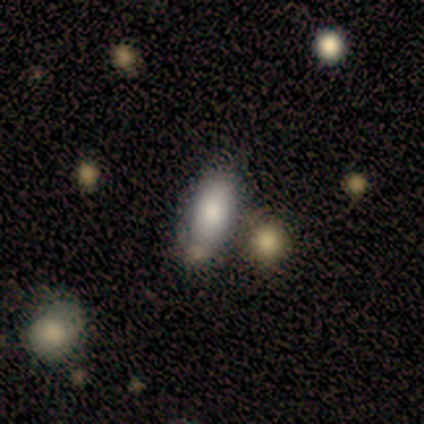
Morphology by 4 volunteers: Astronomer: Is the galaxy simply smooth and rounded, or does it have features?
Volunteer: smooth — 100%.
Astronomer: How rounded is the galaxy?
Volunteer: in between — 100%.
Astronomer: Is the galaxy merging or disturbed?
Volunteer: none — 75%.